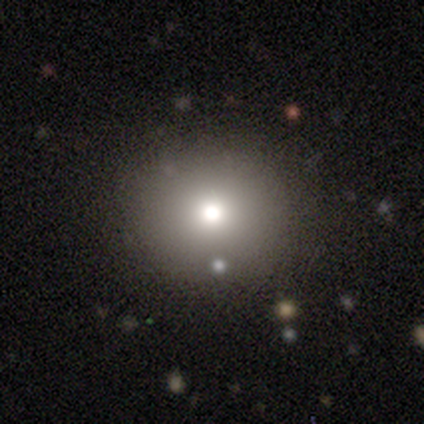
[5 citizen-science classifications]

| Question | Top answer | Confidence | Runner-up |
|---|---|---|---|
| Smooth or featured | smooth | 80% | featured or disk (20%) |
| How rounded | round | 100% | — |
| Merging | none | 80% | minor disturbance (20%) |